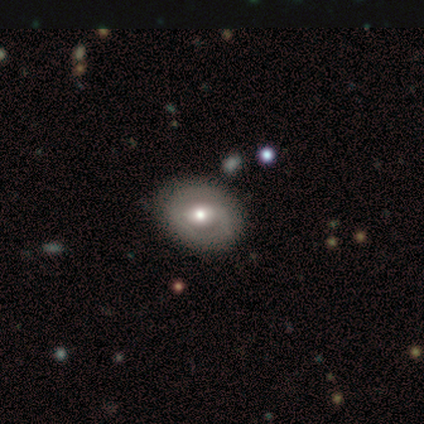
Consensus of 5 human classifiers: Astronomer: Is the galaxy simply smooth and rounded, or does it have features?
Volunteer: featured or disk — 80%.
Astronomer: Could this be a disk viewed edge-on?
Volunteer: no — 75%.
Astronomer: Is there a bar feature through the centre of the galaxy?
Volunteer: weak — 100%.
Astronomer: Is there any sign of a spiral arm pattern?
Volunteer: no — 67%.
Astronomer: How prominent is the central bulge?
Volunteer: small — 67%.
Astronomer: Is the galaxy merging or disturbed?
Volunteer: none — 80%.